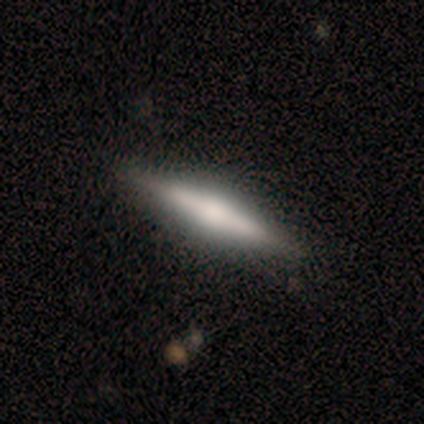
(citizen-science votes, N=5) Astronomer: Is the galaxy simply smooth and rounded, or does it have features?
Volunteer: featured or disk — 80%.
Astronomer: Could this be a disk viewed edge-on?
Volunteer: yes — 100%.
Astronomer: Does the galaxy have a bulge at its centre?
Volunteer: rounded — 100%.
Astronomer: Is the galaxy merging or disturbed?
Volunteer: none — 100%.